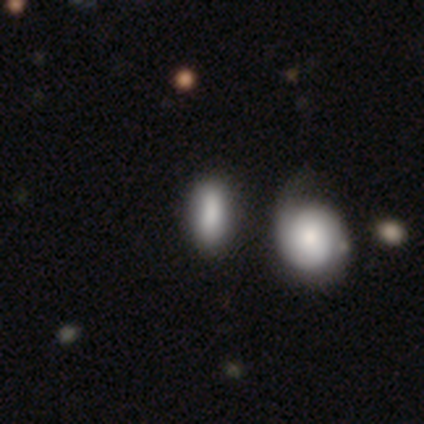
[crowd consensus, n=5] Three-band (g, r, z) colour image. It shows a smooth galaxy with no disk features (100%) that is in between round and cigar-shaped (80%). Merging: none (100%).